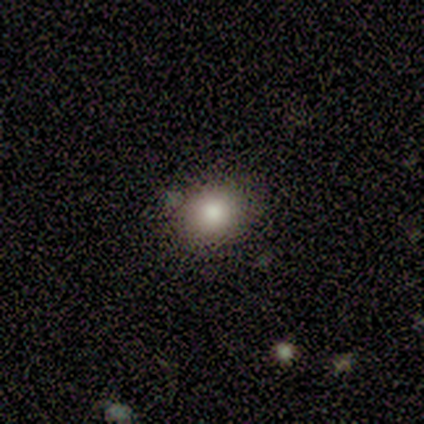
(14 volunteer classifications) smooth 86%, featured or disk 14%, star or artifact 0%. Down the decision tree: how rounded — round (58%); merging — none (86%).